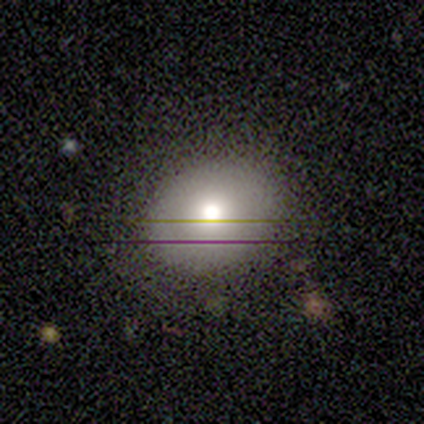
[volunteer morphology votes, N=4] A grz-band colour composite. It shows a smooth galaxy with no disk features (100%) that is round (75%). Merging: none (100%).